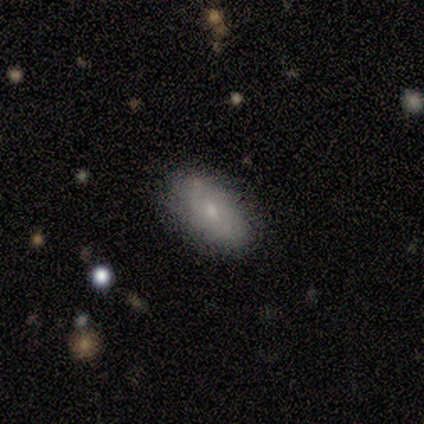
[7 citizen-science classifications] Smooth or featured? featured or disk (57%)
Edge-on disk? no (100%)
Bar? no (75%)
Spiral arms? yes (50%, tied with no)
Spiral winding? tight (100%)
Spiral arm count? 2 (50%, tied with can't tell)
Bulge size? moderate (50%, tied with small)
Merging? none (86%)